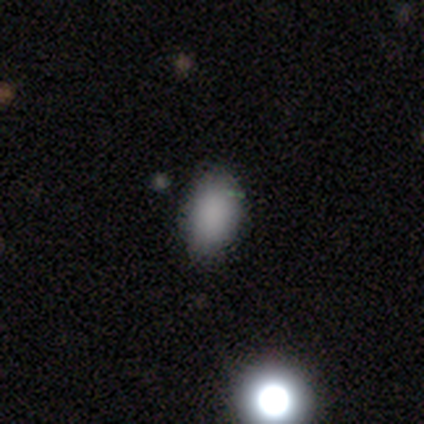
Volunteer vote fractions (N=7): Overall: smooth (57%; star or artifact 29%). How rounded: in between (100%). Merging: minor disturbance (60%; none 20%).